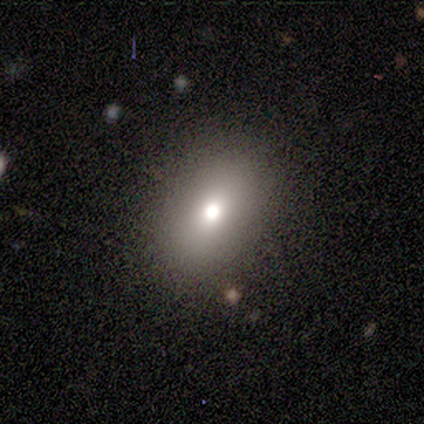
Overall: smooth (100%). How rounded: in between (60%; round 40%). Merging: none (60%; minor disturbance 40%).